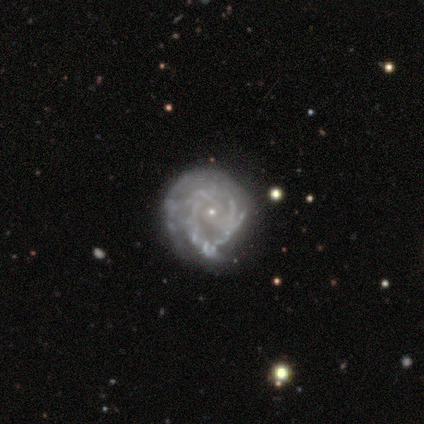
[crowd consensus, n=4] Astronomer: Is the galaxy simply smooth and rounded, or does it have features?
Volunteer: featured or disk — 100%.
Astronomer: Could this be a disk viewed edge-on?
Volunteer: no — 75%.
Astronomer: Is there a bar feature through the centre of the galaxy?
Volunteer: no — 100%.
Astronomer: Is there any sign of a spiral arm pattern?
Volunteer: yes — 67%.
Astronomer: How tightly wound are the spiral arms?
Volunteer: tight — 100%.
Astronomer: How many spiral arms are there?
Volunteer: more than 4 — 50%, tied with can't tell at 50%.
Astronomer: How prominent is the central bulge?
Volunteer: small — 100%.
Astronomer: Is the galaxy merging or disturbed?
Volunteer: none — 50%, tied with minor disturbance at 50%.